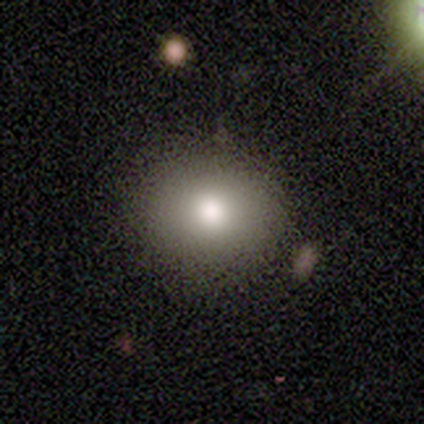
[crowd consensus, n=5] Smooth or featured: smooth — 80% (featured or disk — 20%)
How rounded: round — 75% (in between — 25%)
Merging: none — 80% (minor disturbance — 20%)